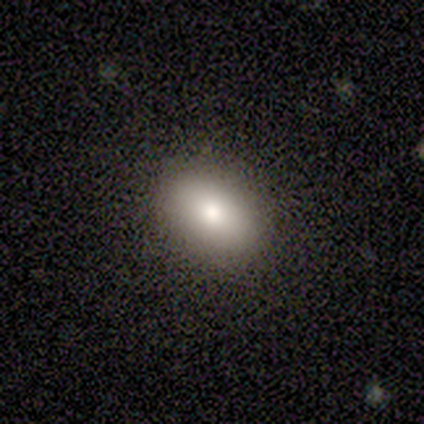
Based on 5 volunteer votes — Q: Smooth or featured?
A: smooth (60%); runner-up: featured or disk (40%)
Q: How rounded?
A: round (67%); runner-up: in between (33%)
Q: Merging?
A: none (80%); runner-up: minor disturbance (20%)